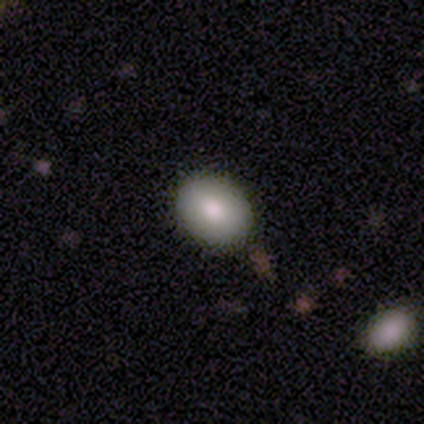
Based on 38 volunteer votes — Q: Smooth or featured?
A: smooth (87%); runner-up: featured or disk (8%)
Q: How rounded?
A: in between (61%); runner-up: round (36%)
Q: Merging?
A: none (92%); runner-up: minor disturbance (6%)